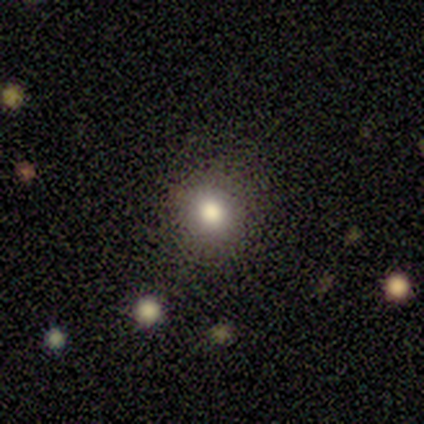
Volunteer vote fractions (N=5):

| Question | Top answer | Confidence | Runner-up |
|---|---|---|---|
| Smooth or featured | smooth | 80% | featured or disk (20%) |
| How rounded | round | 75% | in between (25%) |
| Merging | none | 100% | — |